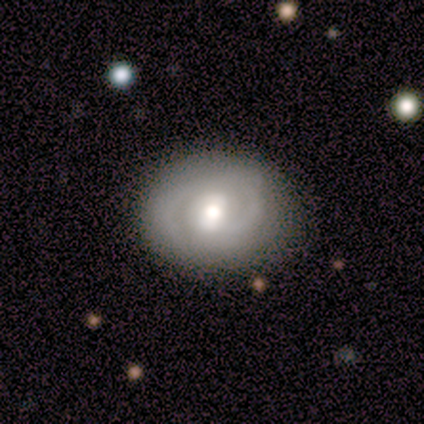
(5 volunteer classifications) Overall: featured or disk (80%). Edge-on disk: no (100%). Bar: no (75%). Spiral arms: no (75%). Bulge size: moderate (75%). Merging: none (100%).